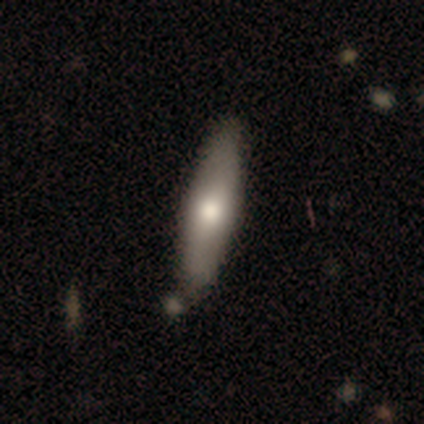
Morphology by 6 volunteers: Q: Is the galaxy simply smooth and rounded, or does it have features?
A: featured or disk — 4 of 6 (67%).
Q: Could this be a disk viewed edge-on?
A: yes — 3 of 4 (75%).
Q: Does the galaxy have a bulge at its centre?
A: rounded — 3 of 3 (100%).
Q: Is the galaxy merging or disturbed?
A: none — 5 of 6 (83%).